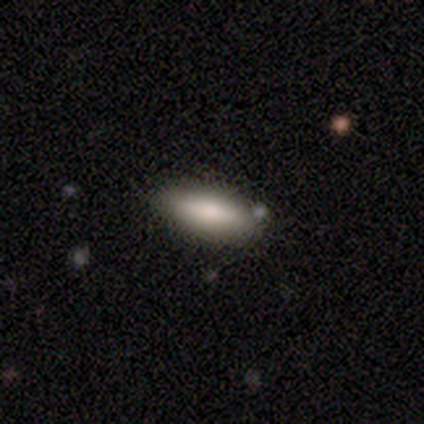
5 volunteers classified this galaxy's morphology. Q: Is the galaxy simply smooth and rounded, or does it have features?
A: smooth — 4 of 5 (80%).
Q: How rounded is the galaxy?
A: in between — 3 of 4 (75%).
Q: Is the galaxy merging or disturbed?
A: none — 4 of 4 (100%).